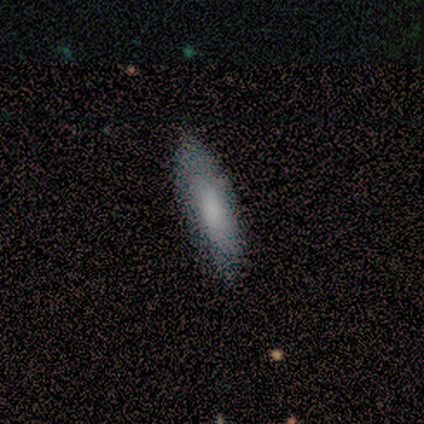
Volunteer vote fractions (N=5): Smooth or featured: smooth — 60% (featured or disk — 20%)
How rounded: cigar-shaped — 67% (in between — 33%)
Merging: none — 100%